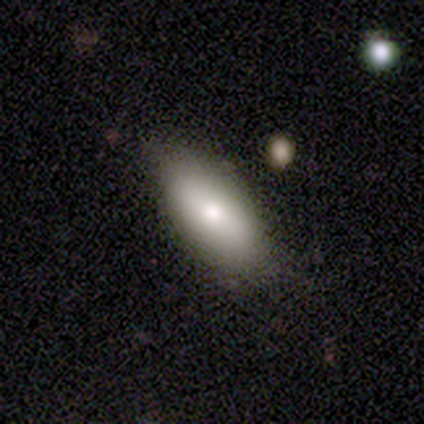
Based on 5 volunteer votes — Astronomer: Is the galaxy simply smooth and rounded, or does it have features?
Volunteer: smooth — 100%.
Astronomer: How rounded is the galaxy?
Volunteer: in between — 100%.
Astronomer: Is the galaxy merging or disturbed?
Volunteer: none — 100%.